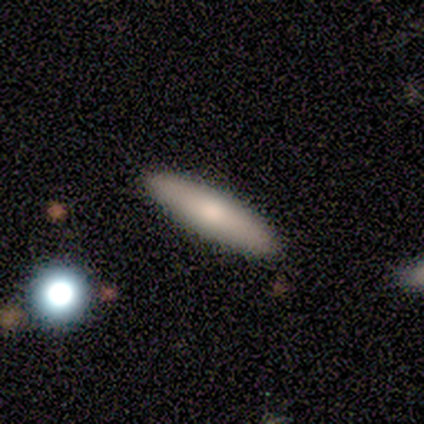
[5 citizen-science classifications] Volunteers were most divided on "how rounded": cigar-shaped: 80%, in between: 20%, round: 0%. More confident: smooth or featured — smooth (100%); merging — none (100%).